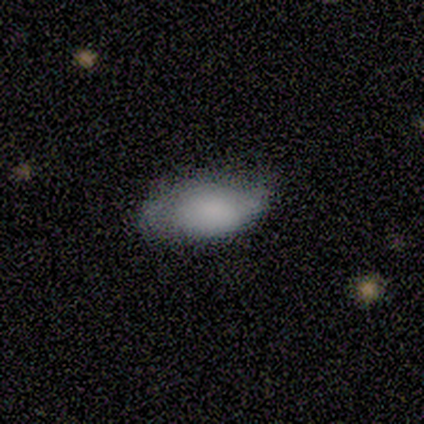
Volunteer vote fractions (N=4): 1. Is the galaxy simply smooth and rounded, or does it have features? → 75% smooth, 25% star or artifact, 0% featured or disk.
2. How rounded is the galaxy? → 100% in between, 0% round, 0% cigar-shaped.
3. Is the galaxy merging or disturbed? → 67% none, 33% minor disturbance, 0% major disturbance, 0% merger.